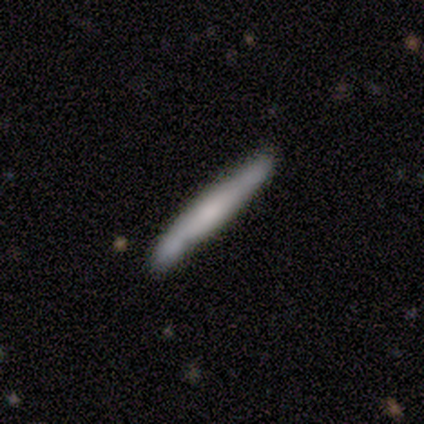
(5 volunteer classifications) smooth_or_featured: smooth (p=0.80) [alt: star or artifact p=0.20]
how_rounded: cigar-shaped (p=1.00)
merging: none (p=1.00)